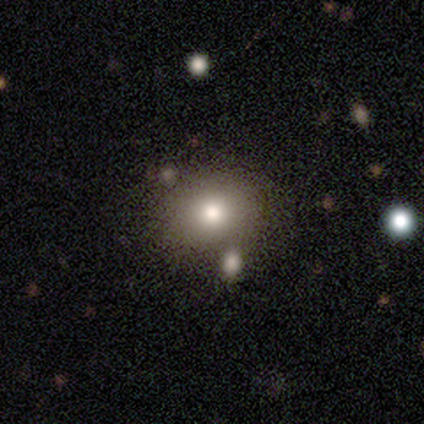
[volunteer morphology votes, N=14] smooth-or-featured: smooth: 79% | featured or disk: 21% | star or artifact: 0%
  how-rounded: round: 82% | in between: 18% | cigar-shaped: 0%
  merging: none: 86% | minor disturbance: 14% | major disturbance: 0% | merger: 0%